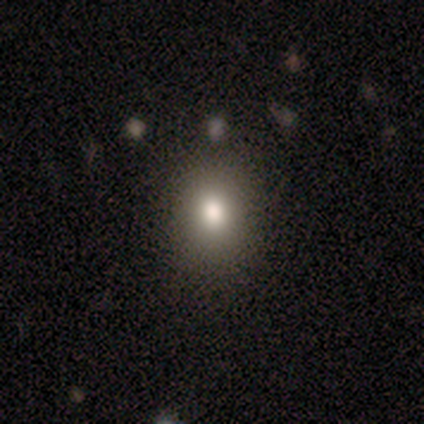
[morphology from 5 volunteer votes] Smooth or featured? smooth (80%)
How rounded? round (50%, tied with in between)
Merging? none (100%)